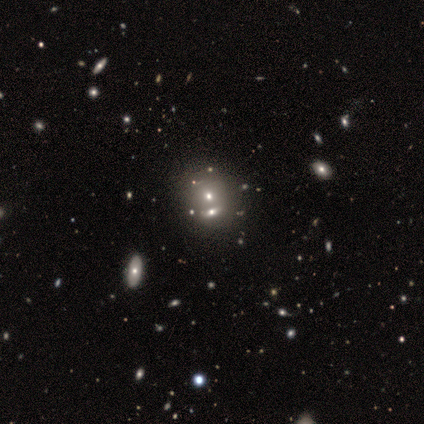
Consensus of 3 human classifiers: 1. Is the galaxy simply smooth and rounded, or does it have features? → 67% smooth, 33% star or artifact, 0% featured or disk.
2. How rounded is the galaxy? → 100% round, 0% in between, 0% cigar-shaped.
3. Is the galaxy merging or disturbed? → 100% merger, 0% none, 0% minor disturbance, 0% major disturbance.